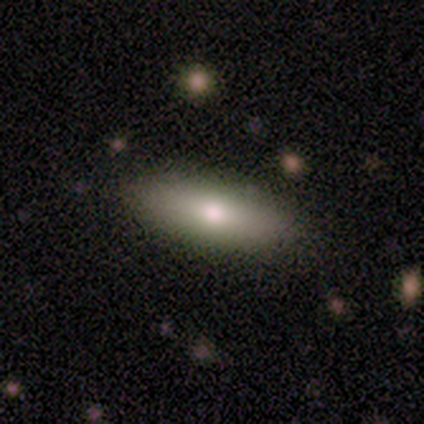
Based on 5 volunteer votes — smooth-or-featured: smooth: 80% | featured or disk: 20% | star or artifact: 0%
  how-rounded: in between: 75% | cigar-shaped: 25% | round: 0%
  merging: none: 80% | minor disturbance: 20% | major disturbance: 0% | merger: 0%